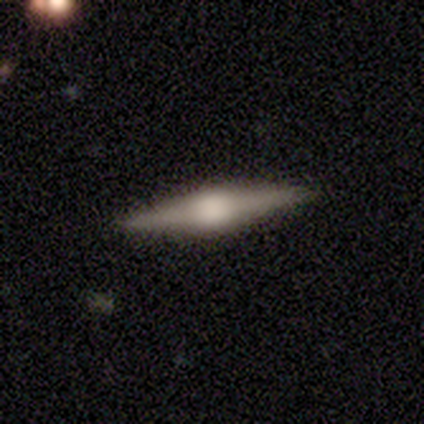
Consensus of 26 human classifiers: Q: Smooth or featured?
A: featured or disk (62%); runner-up: smooth (23%)
Q: Edge-on disk?
A: yes (100%)
Q: Edge-on bulge?
A: rounded (75%); runner-up: boxy (25%)
Q: Merging?
A: none (95%); runner-up: minor disturbance (5%)